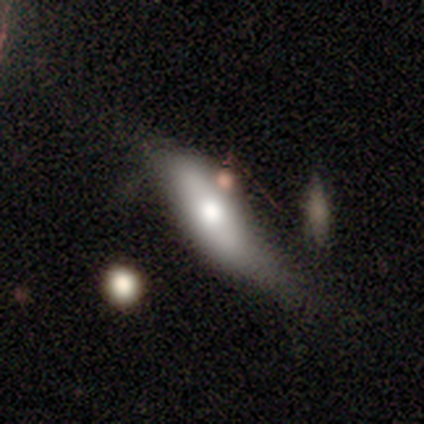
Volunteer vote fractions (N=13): Smooth or featured? 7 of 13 (54%) said smooth. How rounded? 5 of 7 (71%) said in between. Merging? 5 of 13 (38%, tied with minor disturbance) said none.